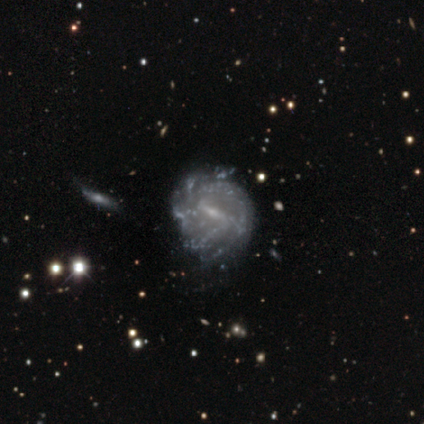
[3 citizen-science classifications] This appears to be a featured or disk galaxy (100%) with a strong bar (67%), 3 (33%, tied with more than 4 and can't tell) loose (67%) spiral arms (100%) and a moderate central bulge (67%). Merging: none (67%).